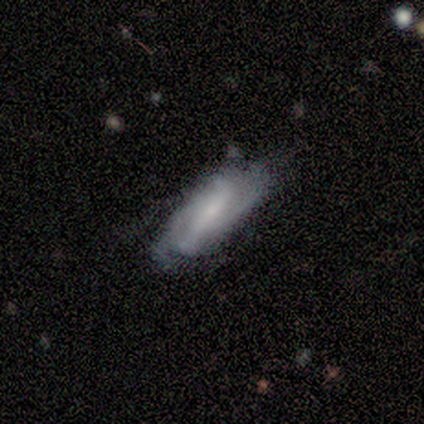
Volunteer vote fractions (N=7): Overall: featured or disk (86%). Edge-on disk: no (83%). Bar: weak (60%; strong 40%). Spiral arms: yes (60%; no 40%). Spiral arm count: 2 (33%, tied with 4 and can't tell). Spiral winding: medium (67%; tight 33%). Bulge size: small (60%; moderate 20%). Merging: none (67%).